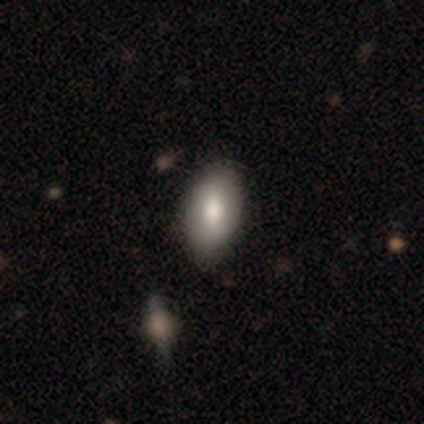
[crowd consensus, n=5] Smooth or featured? smooth (60%)
How rounded? in between (100%)
Merging? none (100%)